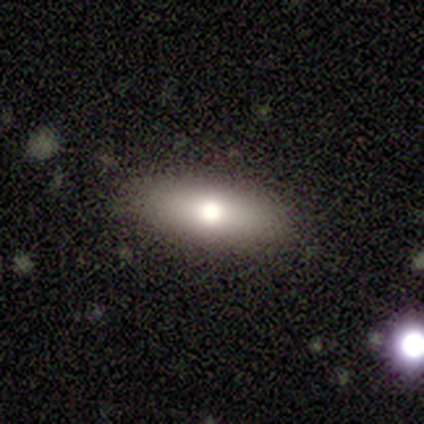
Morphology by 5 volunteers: type=smooth (80%); roundness=in between (75%); merging=none (100%).